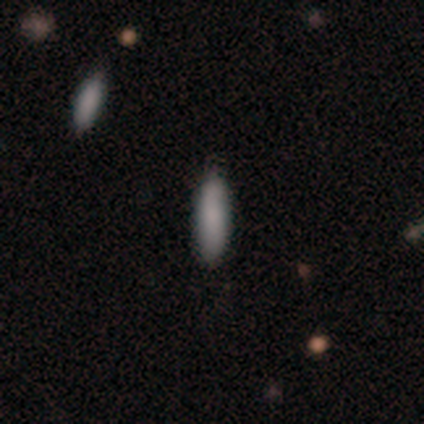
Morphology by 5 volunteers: Smooth or featured? smooth (80%)
How rounded? in between (50%, tied with cigar-shaped)
Merging? none (75%)